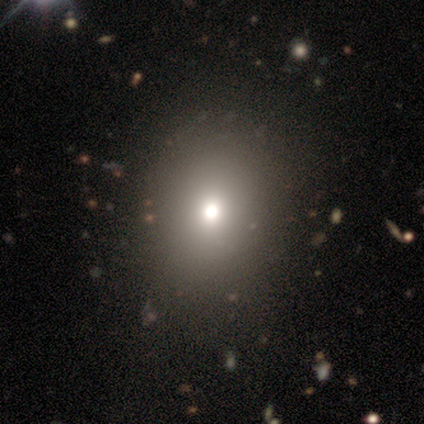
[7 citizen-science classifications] Smooth or featured? 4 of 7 (57%) said smooth. How rounded? 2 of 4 (50%, tied with in between) said round. Merging? 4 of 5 (80%) said none.